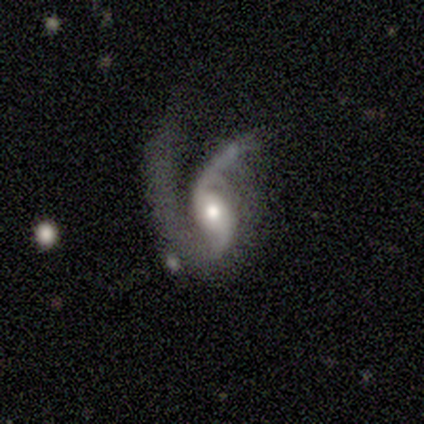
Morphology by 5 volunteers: smooth-or-featured: featured or disk: 80% | star or artifact: 20% | smooth: 0%
  disk-edge-on: no: 100% | yes: 0%
    bar: no: 100% | strong: 0% | weak: 0%
    has-spiral-arms: yes: 100% | no: 0%
      spiral-winding: loose: 75% | medium: 25% | tight: 0%
      spiral-arm-count: 2: 100% | 1: 0% | 3: 0% | 4: 0% | more than 4: 0% | can't tell: 0%
    bulge-size: moderate: 75% | small: 25% | dominant: 0% | large: 0% | none: 0%
  merging: major disturbance: 75% | merger: 25% | none: 0% | minor disturbance: 0%